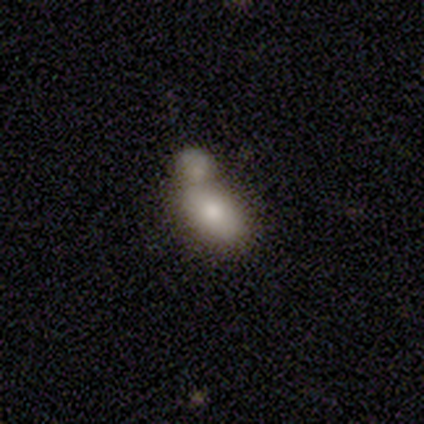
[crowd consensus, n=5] A smooth galaxy with no disk features (80%) that is in between round and cigar-shaped (75%). Merging: minor disturbance (40%, tied with merger).